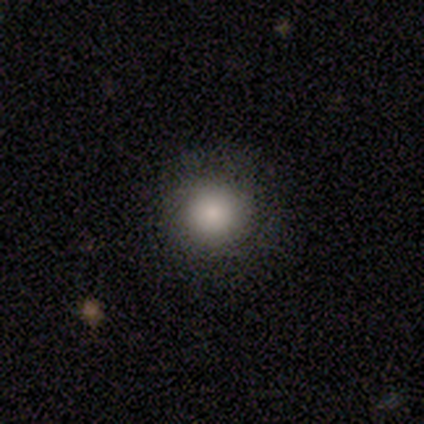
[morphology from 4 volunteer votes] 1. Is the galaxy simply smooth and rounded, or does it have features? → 50% smooth, 25% featured or disk, 25% star or artifact.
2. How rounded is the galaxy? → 100% round, 0% in between, 0% cigar-shaped.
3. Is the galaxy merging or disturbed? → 100% none, 0% minor disturbance, 0% major disturbance, 0% merger.